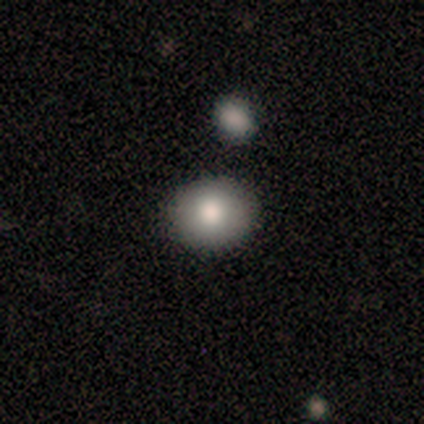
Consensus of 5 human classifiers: This appears to be a smooth galaxy with no disk features (80%) that is round (50%, tied with in between). Merging: none (80%).